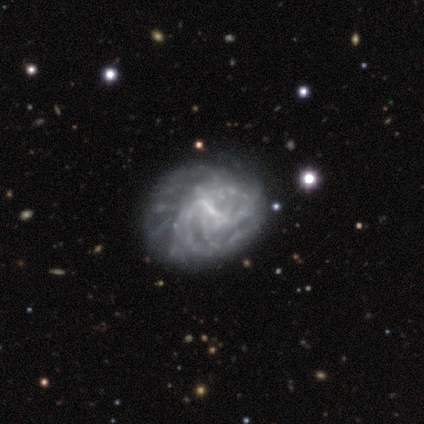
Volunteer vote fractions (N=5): This is clearly a featured or disk galaxy (100%). It is clearly not viewed edge-on (100%). Bar: marginally weak (40%, tied with no). Spiral arm pattern: clearly yes (80%). Spiral arm count: possibly more than 4 (50%, tied with can't tell). Spiral winding: likely tight (75%). Central bulge: likely none (60%). Merging: marginally none (40%, tied with major disturbance).